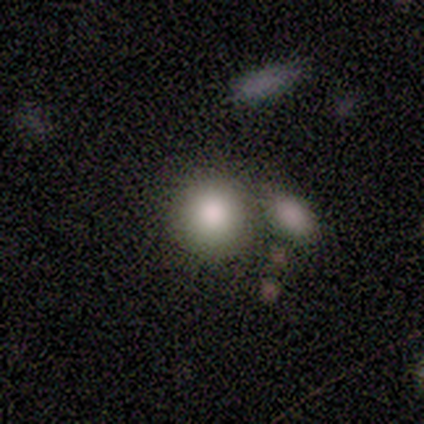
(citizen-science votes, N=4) Smooth or featured: smooth — 75% (featured or disk — 25%)
How rounded: round — 67% (in between — 33%)
Merging: merger — 50% (none — 25%)